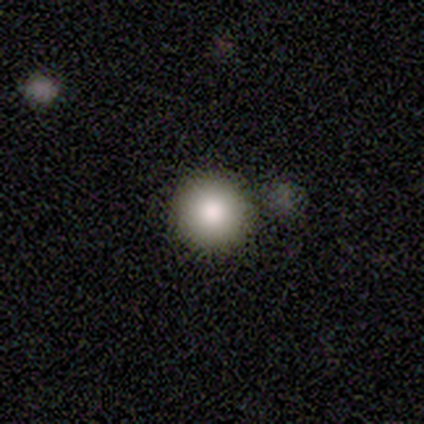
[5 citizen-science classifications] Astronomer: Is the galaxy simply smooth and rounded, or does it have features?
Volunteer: smooth — 60% (runner-up: star or artifact, 40%).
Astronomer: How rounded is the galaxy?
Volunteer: round — 100%.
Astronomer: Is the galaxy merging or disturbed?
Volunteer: none — 100%.